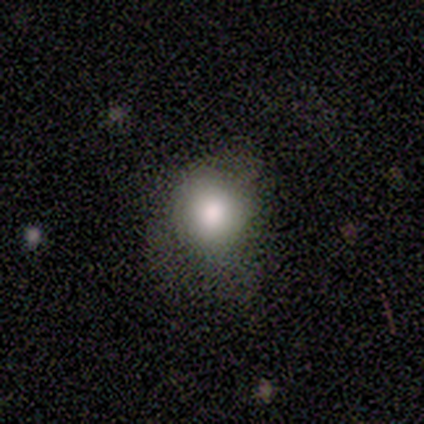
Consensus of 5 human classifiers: A smooth galaxy with no disk features (80%) that is round (50%, tied with in between). Merging: none (50%).